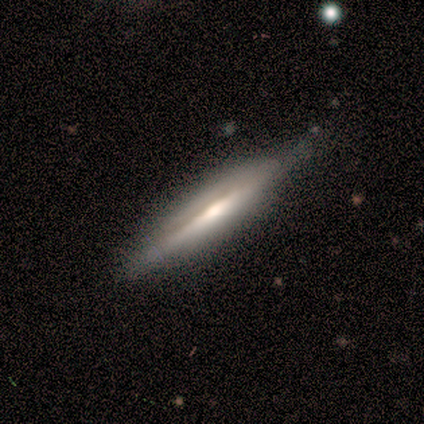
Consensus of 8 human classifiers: smooth-or-featured: smooth: 50% (tied) | featured or disk: 50% (tied) | star or artifact: 0%
  how-rounded: cigar-shaped: 100% | round: 0% | in between: 0%
  merging: none: 75% | minor disturbance: 25% | major disturbance: 0% | merger: 0%